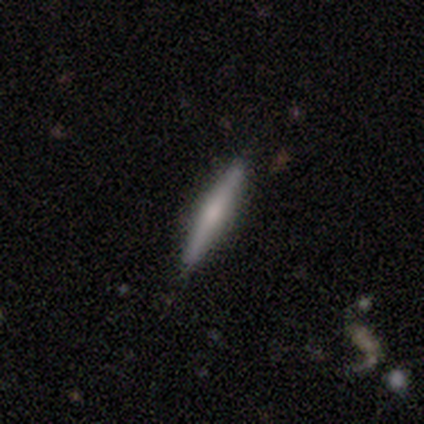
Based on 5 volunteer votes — This is likely a featured or disk galaxy (60%). It is clearly viewed edge-on (100%). Edge-on bulge: likely rounded (67%). Merging: clearly none (100%).